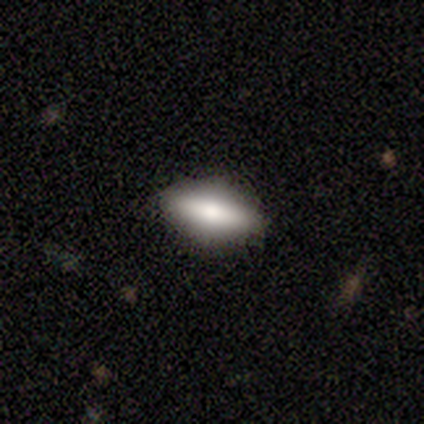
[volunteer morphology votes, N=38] Q: Smooth or featured?
A: smooth (66%); runner-up: featured or disk (32%)
Q: How rounded?
A: in between (64%); runner-up: cigar-shaped (32%)
Q: Merging?
A: none (89%); runner-up: minor disturbance (8%)